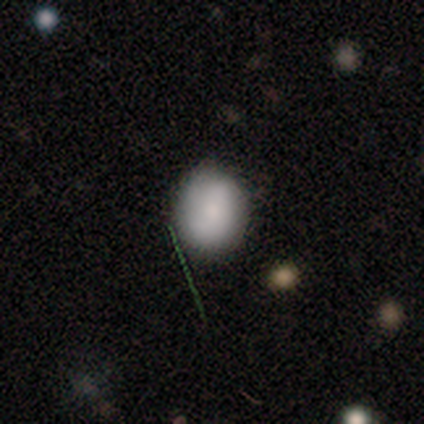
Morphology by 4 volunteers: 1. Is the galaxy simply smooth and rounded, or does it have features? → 100% smooth, 0% featured or disk, 0% star or artifact.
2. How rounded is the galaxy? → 50% round (tied), 50% in between (tied), 0% cigar-shaped.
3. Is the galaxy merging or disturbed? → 75% minor disturbance, 25% none, 0% major disturbance, 0% merger.